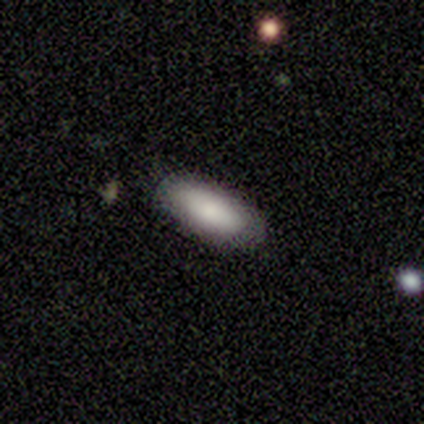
Smooth or featured?
  - smooth: 100% *
  - featured or disk: 0%
  - star or artifact: 0%
How rounded?
  - in between: 80% *
  - cigar-shaped: 20%
  - round: 0%
Merging?
  - none: 100% *
  - minor disturbance: 0%
  - major disturbance: 0%
  - merger: 0%